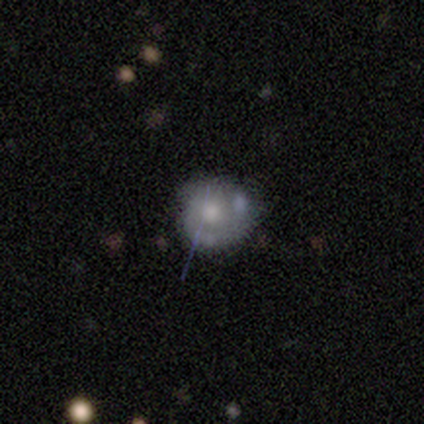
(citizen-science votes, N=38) Morphology: type=featured or disk (50%); edge-on=no (100%); bar=no (84%); spiral arms=yes (53%); winding=tight (70%); arm count=2 (60%); bulge=moderate (95%); merging=none (59%).